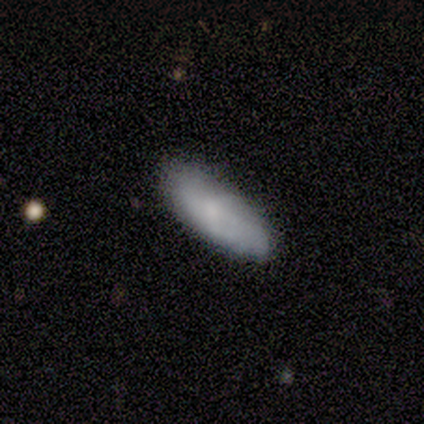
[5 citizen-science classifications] Overall: featured or disk (60%; smooth 20%). Edge-on disk: no (100%). Bar: no (67%; strong 33%). Spiral arms: no (100%). Bulge size: dominant (33%, tied with small and none). Merging: none (25%, tied with minor disturbance, major disturbance and merger).